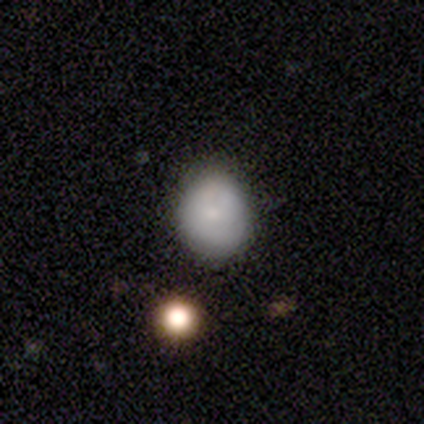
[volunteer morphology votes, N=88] Smooth or featured? smooth (70%)
How rounded? round (82%)
Merging? none (74%)